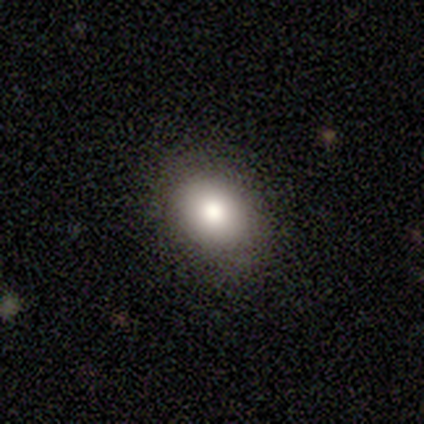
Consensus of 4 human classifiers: smooth 75%, star or artifact 25%, featured or disk 0%. Down the decision tree: how rounded — in between (100%); merging — none (100%).